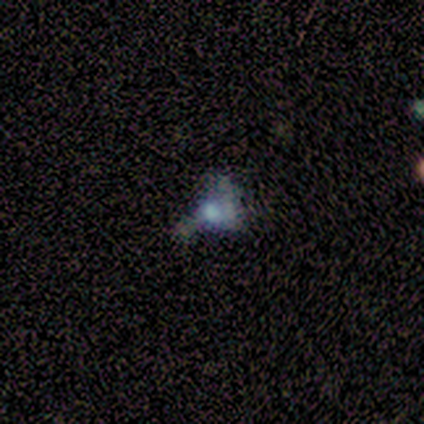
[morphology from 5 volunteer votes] Q: Smooth or featured?
A: featured or disk (40%); tied with: star or artifact (40%)
Q: Edge-on disk?
A: no (100%)
Q: Bar?
A: weak (50%); tied with: no (50%)
Q: Spiral arms?
A: yes (50%); tied with: no (50%)
Q: Spiral winding?
A: medium (100%)
Q: Spiral arm count?
A: 3 (100%)
Q: Bulge size?
A: large (50%); tied with: moderate (50%)
Q: Merging?
A: none (33%); tied with: minor disturbance (33%); merger (33%)